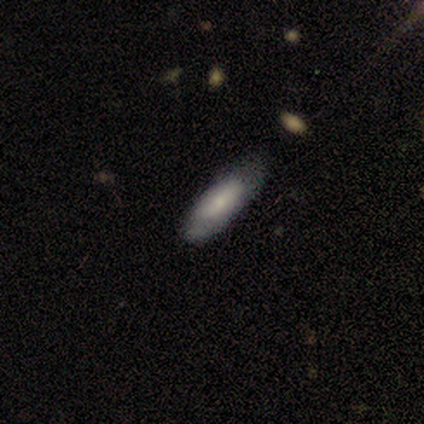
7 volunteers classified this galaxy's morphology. This appears to be a smooth galaxy with no disk features (100%) that is in between round and cigar-shaped (57%). Merging: none (86%).